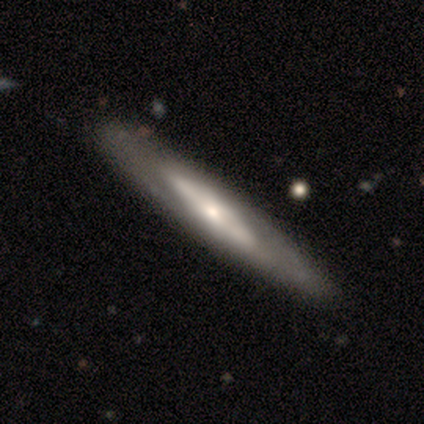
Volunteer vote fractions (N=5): Smooth or featured? 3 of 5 (60%) said smooth. How rounded? 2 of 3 (67%) said cigar-shaped. Merging? 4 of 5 (80%) said none.